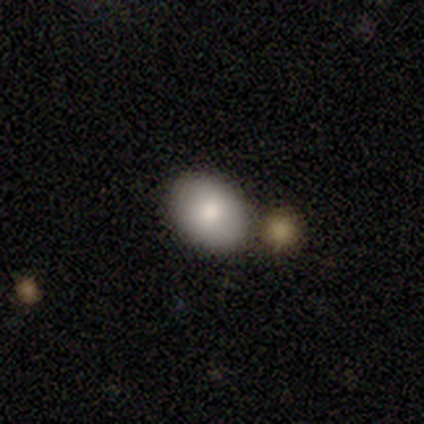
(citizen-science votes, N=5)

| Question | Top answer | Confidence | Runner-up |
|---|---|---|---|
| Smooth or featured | smooth | 80% | featured or disk (20%) |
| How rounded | round | 50% | tied: in between (50%) |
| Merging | none | 100% | — |